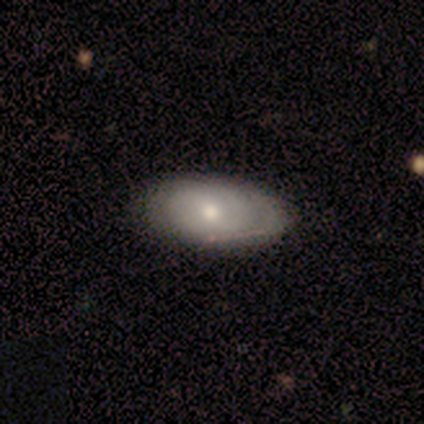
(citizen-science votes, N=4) A smooth galaxy with no disk features (50%, tied with featured or disk) that is in between round and cigar-shaped (100%). Merging: none (100%).